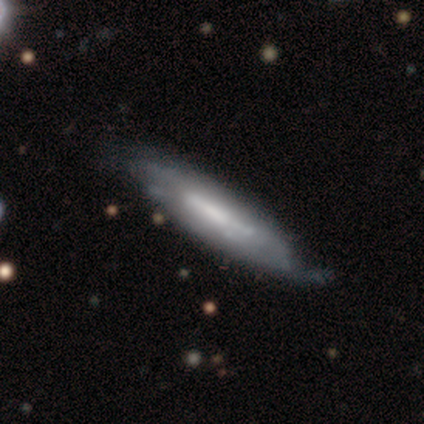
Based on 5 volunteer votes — This appears to be a featured or disk galaxy (80%) viewed edge-on (75%) with no central bulge (67%). Merging: none (60%).